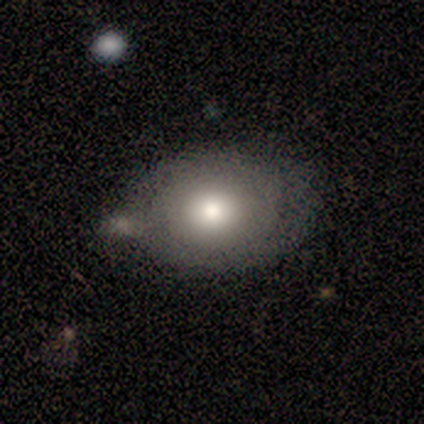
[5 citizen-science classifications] Q: Smooth or featured?
A: smooth (80%); runner-up: featured or disk (20%)
Q: How rounded?
A: round (50%); tied with: in between (50%)
Q: Merging?
A: none (60%); runner-up: merger (40%)